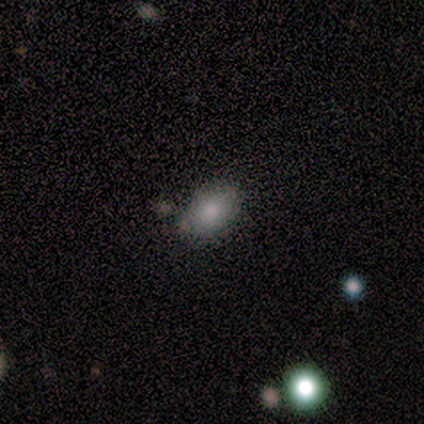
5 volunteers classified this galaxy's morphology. This appears to be a smooth galaxy with no disk features (100%) that is in between round and cigar-shaped (80%). Merging: none (100%).